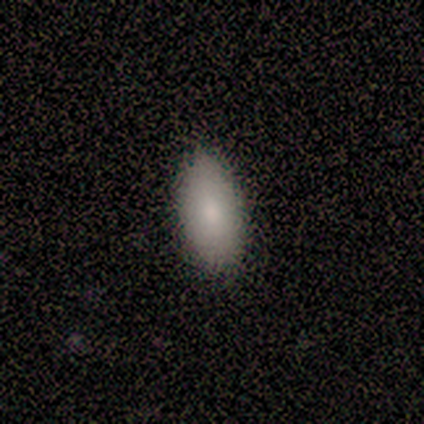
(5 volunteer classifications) Consensus on every question: smooth or featured — smooth (100%); how rounded — in between (100%); merging — none (100%).